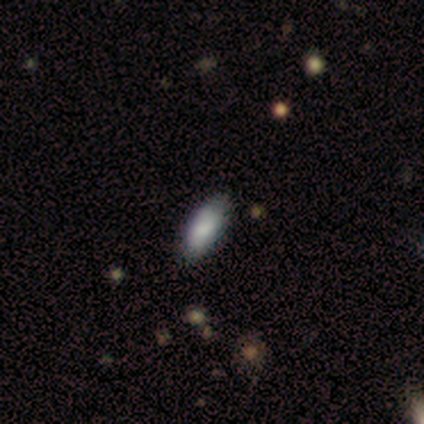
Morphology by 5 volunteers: smooth_or_featured: smooth (p=0.80) [alt: star or artifact p=0.20]
how_rounded: in between (p=1.00)
merging: none (p=1.00)